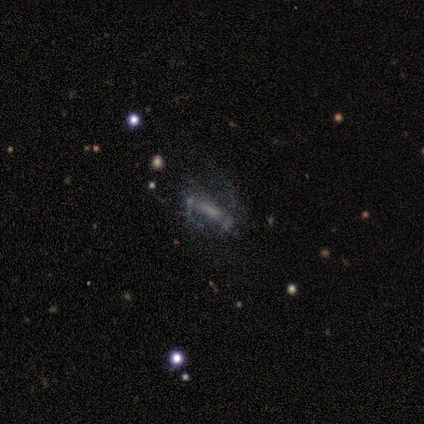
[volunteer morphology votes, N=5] featured or disk 80%, star or artifact 20%, smooth 0%. Down the decision tree: edge-on disk — no (75%); bar — weak (67%); spiral arms — yes (67%); spiral arm count — 2 (100%); spiral winding — medium (50%, tied with loose); bulge size — small (67%); merging — none (50%).